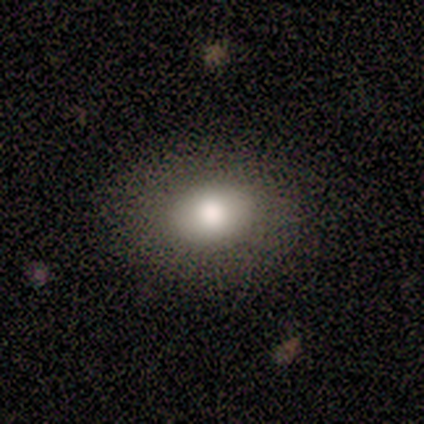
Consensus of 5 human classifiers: smooth_or_featured: smooth (p=0.60) [alt: featured or disk p=0.40]
how_rounded: round (p=0.67) [alt: in between p=0.33]
merging: none (p=1.00)